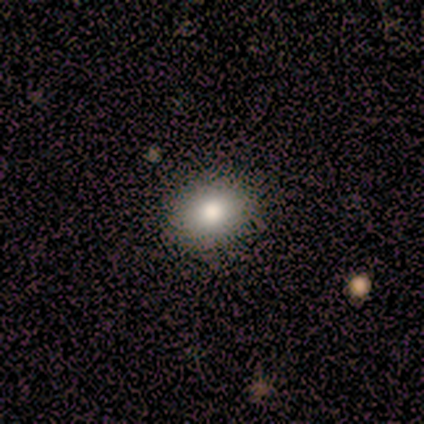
Smooth or featured?
  - smooth: 100% *
  - featured or disk: 0%
  - star or artifact: 0%
How rounded?
  - in between: 67% *
  - round: 33%
  - cigar-shaped: 0%
Merging?
  - none: 100% *
  - minor disturbance: 0%
  - major disturbance: 0%
  - merger: 0%